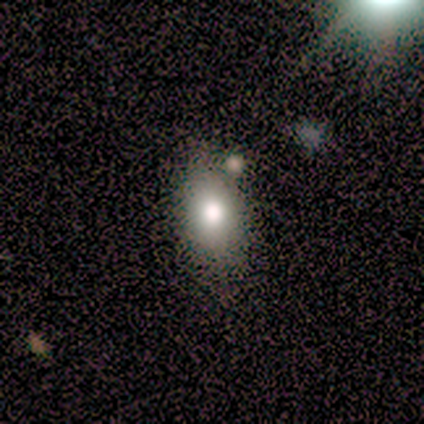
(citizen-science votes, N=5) This appears to be a smooth galaxy with no disk features (60%) that is in between round and cigar-shaped (67%). Merging: none (67%).